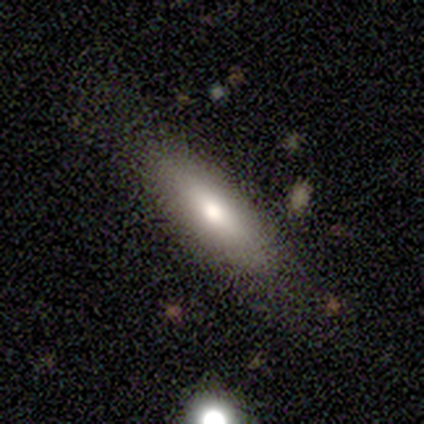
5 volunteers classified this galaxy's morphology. Smooth or featured?
  - smooth: 60% *
  - featured or disk: 20%
  - star or artifact: 20%
How rounded?
  - in between: 100% *
  - round: 0%
  - cigar-shaped: 0%
Merging?
  - none: 100% *
  - minor disturbance: 0%
  - major disturbance: 0%
  - merger: 0%